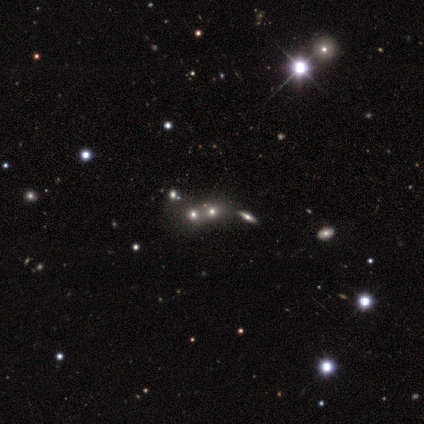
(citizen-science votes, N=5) Smooth or featured: smooth — 80% (star or artifact — 20%)
How rounded: round — 75% (in between — 25%)
Merging: merger — 50% (none — 25%)